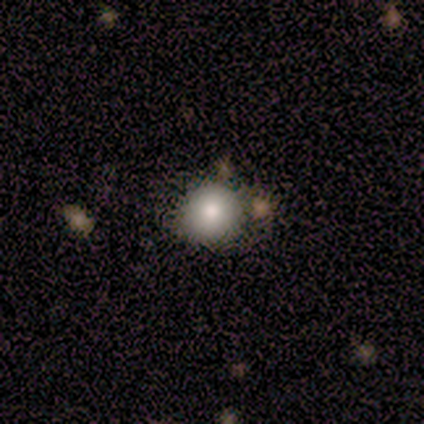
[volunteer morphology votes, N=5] This is clearly a smooth galaxy (100%). How rounded: clearly round (100%). Merging: clearly none (80%).